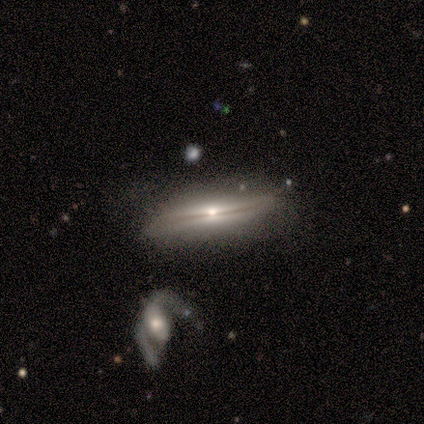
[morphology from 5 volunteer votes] Overall: featured or disk (80%). Edge-on disk: yes (100%). Edge-on bulge: none (50%, tied with rounded). Merging: none (50%, tied with minor disturbance).